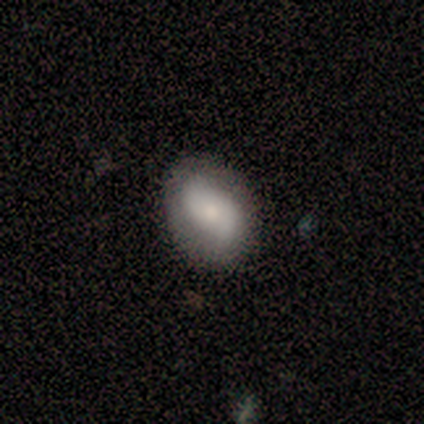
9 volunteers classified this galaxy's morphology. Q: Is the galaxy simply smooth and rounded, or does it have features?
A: smooth — 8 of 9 (89%).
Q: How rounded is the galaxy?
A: in between — 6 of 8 (75%).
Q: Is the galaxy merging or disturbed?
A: none — 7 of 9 (78%).